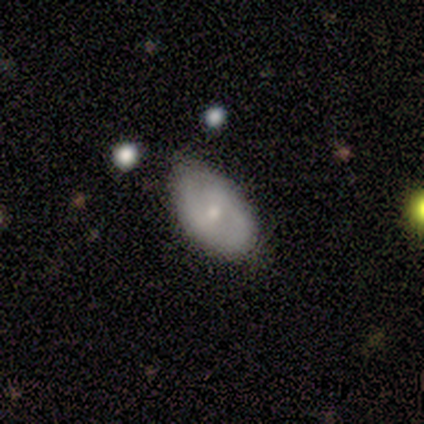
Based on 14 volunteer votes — smooth 71%, featured or disk 29%, star or artifact 0%. Down the decision tree: how rounded — in between (100%); merging — none (79%).